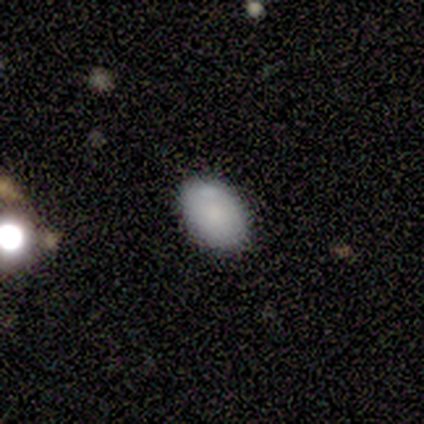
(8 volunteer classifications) Smooth or featured? 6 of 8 (75%) said smooth. How rounded? 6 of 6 (100%) said in between. Merging? 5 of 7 (71%) said none.